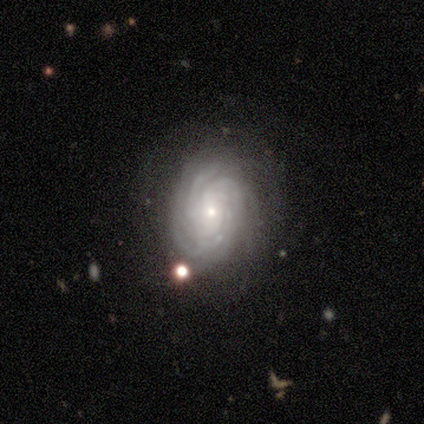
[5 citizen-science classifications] Overall: featured or disk (80%). Edge-on disk: no (100%). Bar: no (75%). Spiral arms: yes (100%). Spiral arm count: more than 4 (75%). Spiral winding: tight (100%). Bulge size: small (100%). Merging: none (75%).